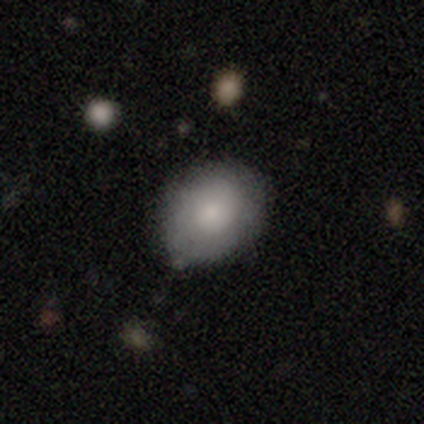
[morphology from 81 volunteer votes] smooth 80%, featured or disk 11%, star or artifact 9%. Down the decision tree: how rounded — in between (58%); merging — none (65%).